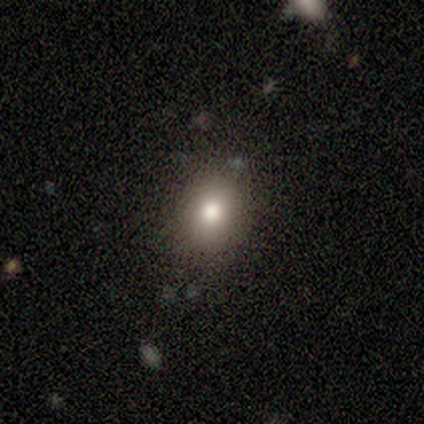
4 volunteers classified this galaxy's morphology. This is possibly a smooth galaxy (50%). How rounded: clearly in between (100%). Merging: likely none (67%).